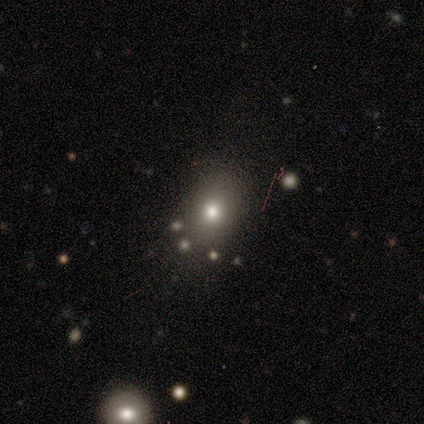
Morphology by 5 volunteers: smooth 60%, star or artifact 40%, featured or disk 0%. Down the decision tree: how rounded — in between (67%); merging — none (100%).